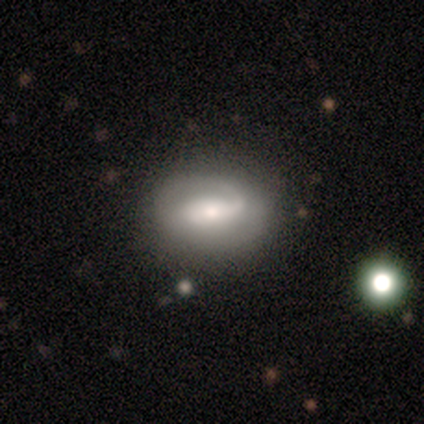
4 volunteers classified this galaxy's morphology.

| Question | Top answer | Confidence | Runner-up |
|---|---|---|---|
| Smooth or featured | featured or disk | 75% | smooth (25%) |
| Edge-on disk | no | 100% | — |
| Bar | strong | 33% | tied: weak (33%), no (33%) |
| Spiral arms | yes | 67% | no (33%) |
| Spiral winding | medium | 100% | — |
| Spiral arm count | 1 | 50% | tied: can't tell (50%) |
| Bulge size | moderate | 67% | large (33%) |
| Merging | none | 50% | minor disturbance (25%) |